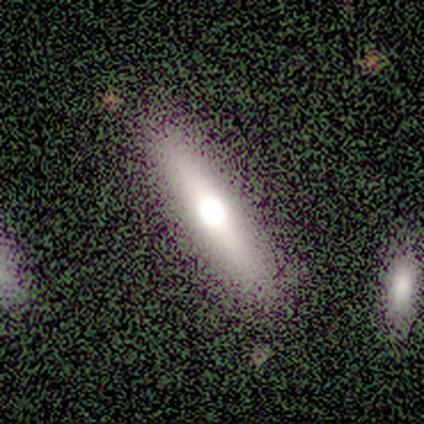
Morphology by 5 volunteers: A smooth galaxy with no disk features (80%) that is cigar-shaped (100%).

Vote fractions:
- Smooth or featured? smooth: 80% / featured or disk: 20% / star or artifact: 0%
- How rounded? cigar-shaped: 100% / round: 0% / in between: 0%
- Merging? none: 100% / minor disturbance: 0% / major disturbance: 0% / merger: 0%